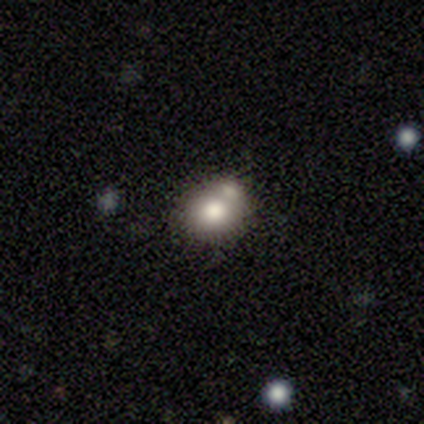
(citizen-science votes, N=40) Overall: smooth (78%). How rounded: round (77%). Merging: merger (51%; none 35%).